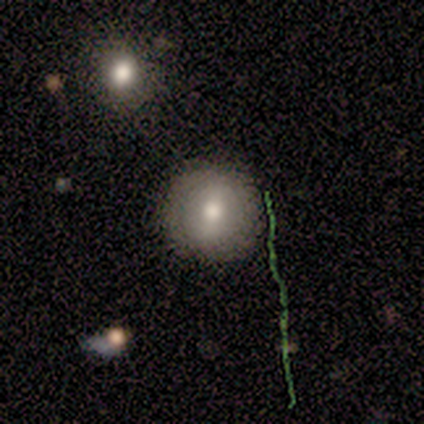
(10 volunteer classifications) Smooth or featured? 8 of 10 (80%) said smooth. How rounded? 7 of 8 (88%) said round. Merging? 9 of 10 (90%) said none.